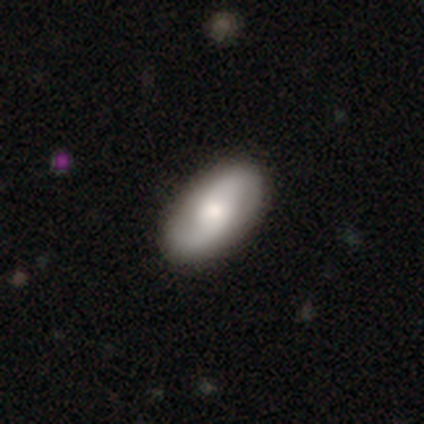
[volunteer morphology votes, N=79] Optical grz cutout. It shows a featured or disk galaxy (54%) with no bar (62%), 2 (92%) medium (59%) spiral arms (95%) and a moderate central bulge (49%). Merging: none (49%).